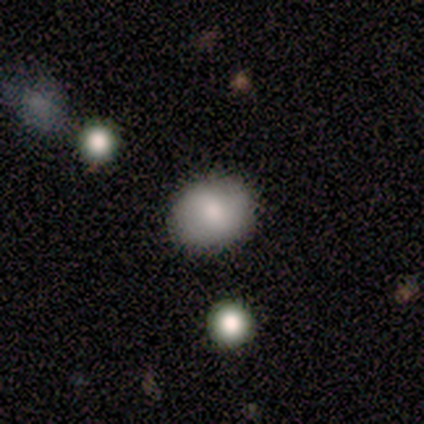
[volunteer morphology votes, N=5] A smooth galaxy with no disk features (80%) that is round (50%, tied with in between). Merging: none (100%).